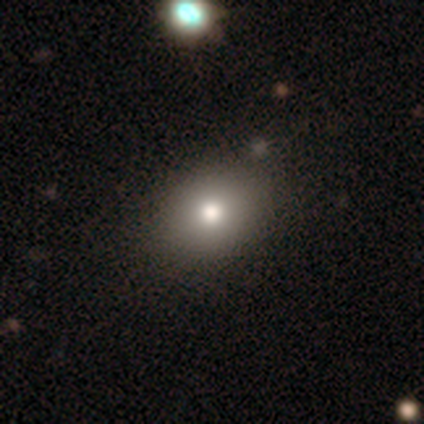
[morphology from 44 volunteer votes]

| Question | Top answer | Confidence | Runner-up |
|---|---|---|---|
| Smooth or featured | smooth | 77% | star or artifact (18%) |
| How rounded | in between | 56% | round (44%) |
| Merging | none | 53% | merger (8%) |